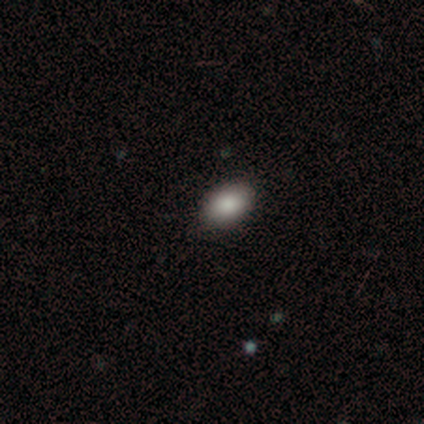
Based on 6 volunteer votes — Smooth or featured? smooth (100%)
How rounded? in between (100%)
Merging? none (100%)